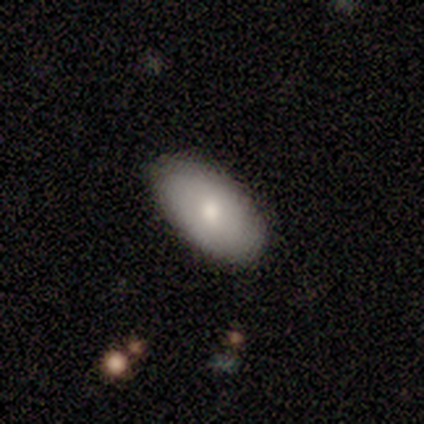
Smooth or featured? 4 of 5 (80%) said smooth. How rounded? 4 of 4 (100%) said in between. Merging? 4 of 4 (100%) said none.